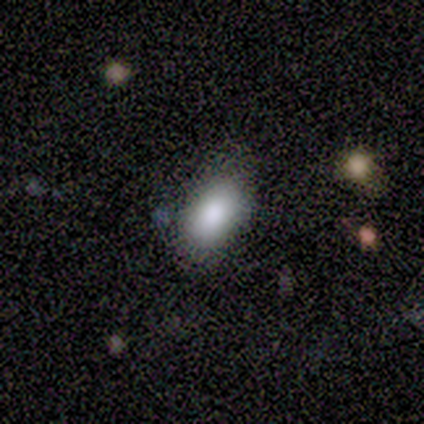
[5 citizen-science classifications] Q: Smooth or featured?
A: smooth (80%); runner-up: star or artifact (20%)
Q: How rounded?
A: in between (100%)
Q: Merging?
A: none (100%)